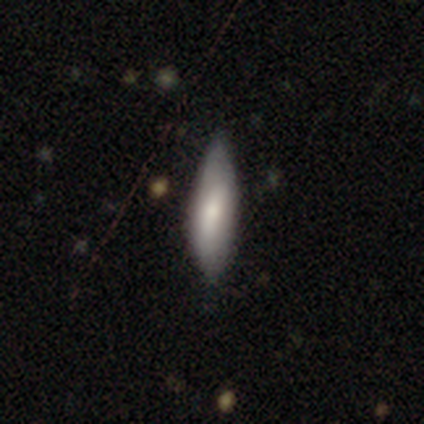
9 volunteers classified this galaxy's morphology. Overall: smooth (78%). How rounded: in between (71%). Merging: none (67%; minor disturbance 33%).